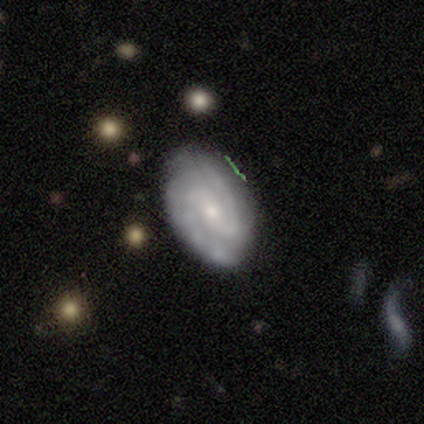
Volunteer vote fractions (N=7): Volunteers were most divided on "smooth or featured": featured or disk: 57%, smooth: 43%, star or artifact: 0%. More confident: spiral arms — yes (100%); spiral arm count — 2 (100%); merging — none (100%); edge-on disk — no (75%); bar — strong (67%); spiral winding — medium (67%); bulge size — small (67%).